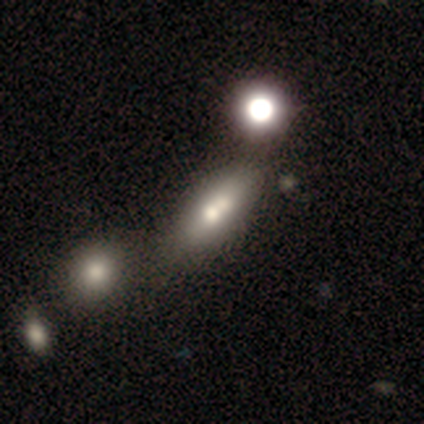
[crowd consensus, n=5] This is clearly a star or artifact rather than a galaxy (80%).